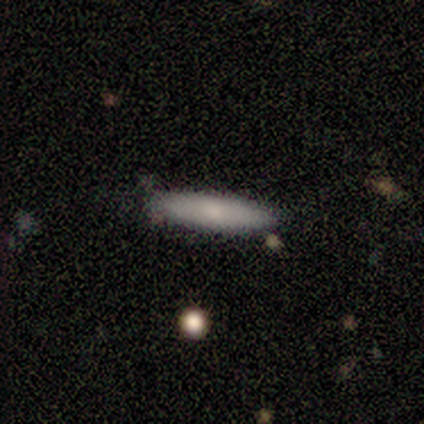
Smooth or featured: featured or disk — 60% (smooth — 40%)
Edge-on disk: no — 67% (yes — 33%)
Bar: weak — 50% (tied with no — 50%)
Spiral arms: yes — 50% (tied with no — 50%)
Spiral winding: tight — 100%
Spiral arm count: 2 — 100%
Bulge size: moderate — 50% (tied with small — 50%)
Merging: none — 80% (minor disturbance — 20%)